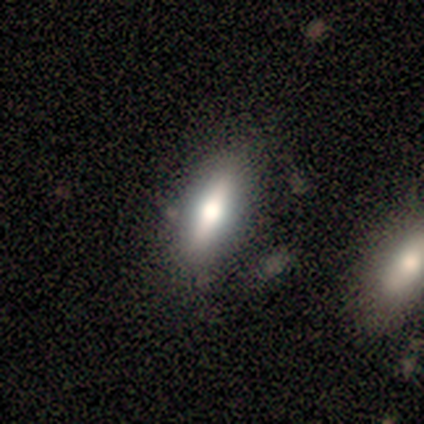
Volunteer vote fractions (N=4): Smooth or featured? 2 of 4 (50%, tied with featured or disk) said smooth. How rounded? 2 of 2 (100%) said cigar-shaped. Merging? 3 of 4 (75%) said none.